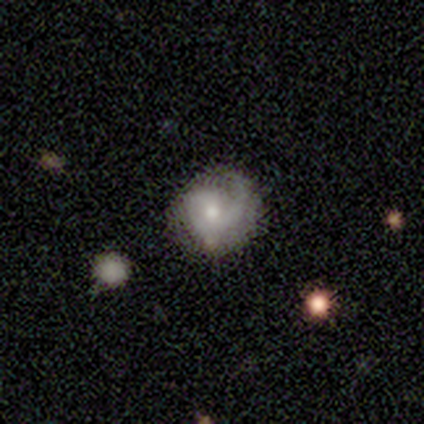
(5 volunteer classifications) A featured or disk galaxy (60%) with no bar (67%), 1 (67%) medium (67%) spiral arms (100%) and a small central bulge (67%). Merging: none (60%).